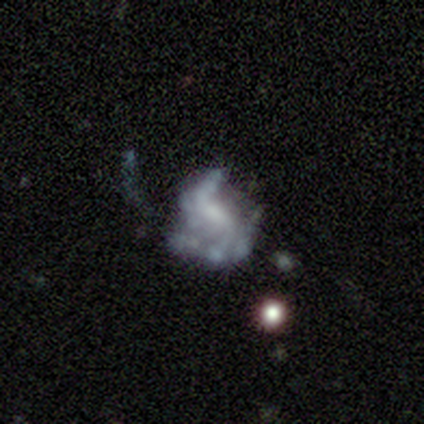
Morphology: type=featured or disk (80%); edge-on=no (100%); bar=no (50%); spiral arms=yes (75%); winding=loose (67%); arm count=2 (100%); bulge=moderate (50%); merging=minor disturbance (40%, tied with major disturbance).